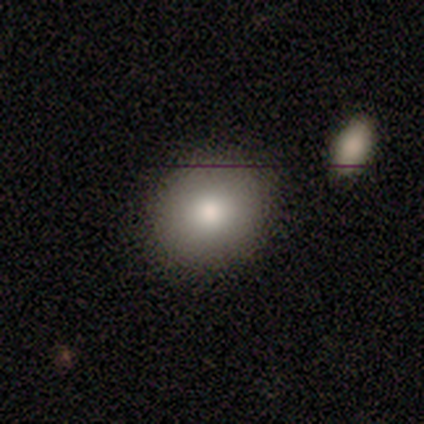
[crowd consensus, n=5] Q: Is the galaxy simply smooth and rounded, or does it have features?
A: smooth — 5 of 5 (100%).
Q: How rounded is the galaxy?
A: round — 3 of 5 (60%).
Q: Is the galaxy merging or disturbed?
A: none — 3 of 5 (60%).